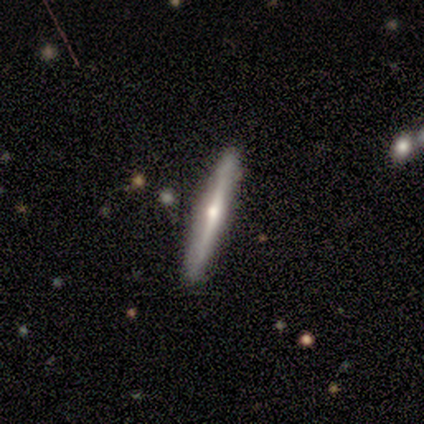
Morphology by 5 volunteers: A featured or disk galaxy (80%) viewed edge-on (100%) with a rounded central bulge (100%). Merging: none (75%).